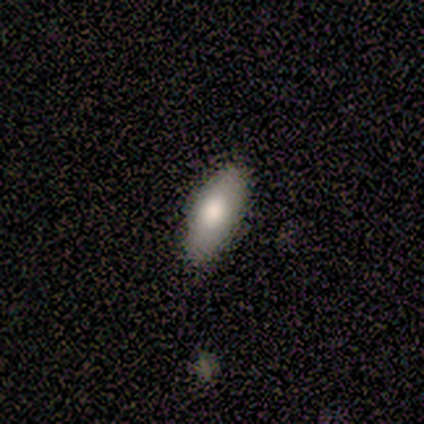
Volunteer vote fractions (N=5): Smooth or featured?
  - smooth: 80% *
  - star or artifact: 20%
  - featured or disk: 0%
How rounded?
  - in between: 75% *
  - cigar-shaped: 25%
  - round: 0%
Merging?
  - none: 100% *
  - minor disturbance: 0%
  - major disturbance: 0%
  - merger: 0%